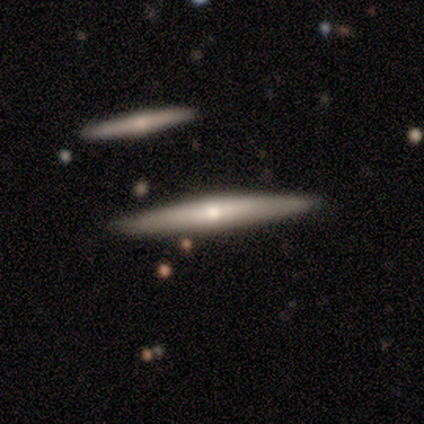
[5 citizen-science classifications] Morphology: type=featured or disk (60%); edge-on=yes (100%); edge-on bulge=rounded (100%); merging=none (80%).